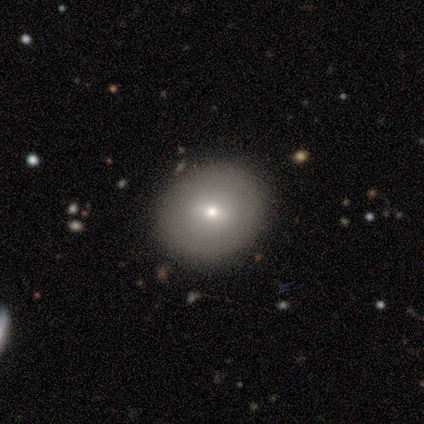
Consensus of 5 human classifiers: smooth-or-featured: smooth: 60% | featured or disk: 20% | star or artifact: 20%
  how-rounded: round: 100% | in between: 0% | cigar-shaped: 0%
  merging: none: 100% | minor disturbance: 0% | major disturbance: 0% | merger: 0%